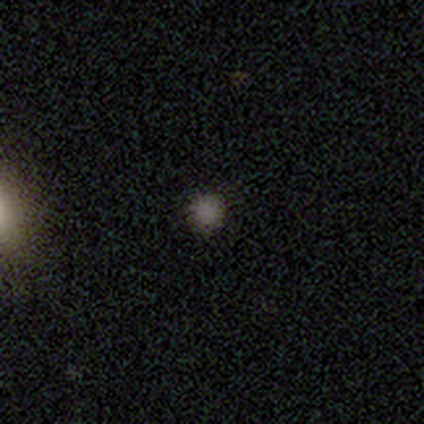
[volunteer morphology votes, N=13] Smooth or featured?
  - smooth: 77% *
  - star or artifact: 15%
  - featured or disk: 8%
How rounded?
  - round: 100% *
  - in between: 0%
  - cigar-shaped: 0%
Merging?
  - none: 91% *
  - minor disturbance: 9%
  - major disturbance: 0%
  - merger: 0%